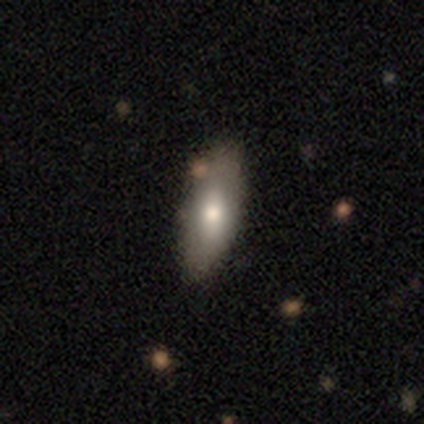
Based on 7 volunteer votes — Overall: smooth (100%). How rounded: in between (71%). Merging: none (86%).